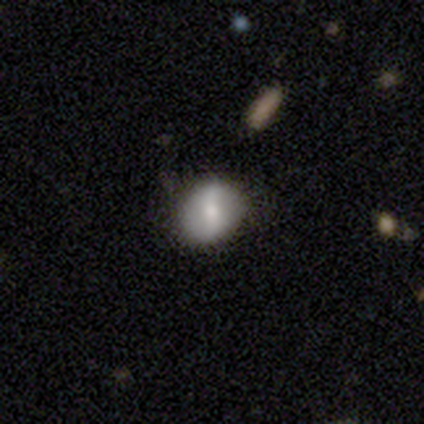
Smooth or featured?
  - smooth: 60% *
  - featured or disk: 20%
  - star or artifact: 20%
How rounded?
  - round: 100% *
  - in between: 0%
  - cigar-shaped: 0%
Merging?
  - none: 75% *
  - minor disturbance: 25%
  - major disturbance: 0%
  - merger: 0%